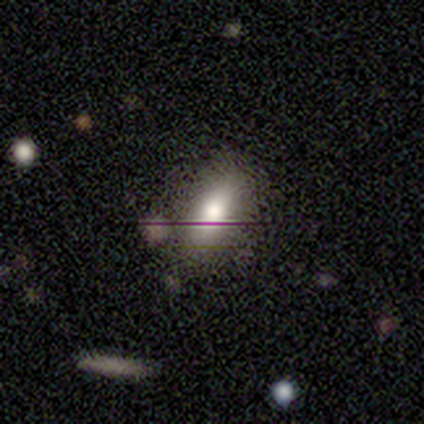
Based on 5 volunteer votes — Smooth or featured? smooth (100%)
How rounded? in between (100%)
Merging? none (60%)